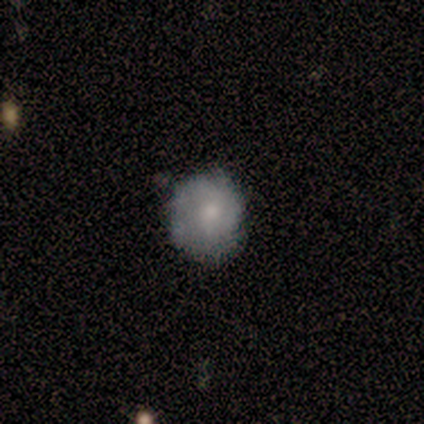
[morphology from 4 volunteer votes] Smooth or featured?
  - smooth: 75% *
  - featured or disk: 25%
  - star or artifact: 0%
How rounded?
  - in between: 67% *
  - round: 33%
  - cigar-shaped: 0%
Merging?
  - none: 50% * (tied)
  - minor disturbance: 50% * (tied)
  - major disturbance: 0%
  - merger: 0%